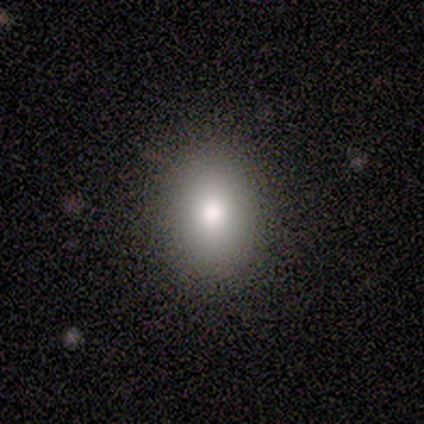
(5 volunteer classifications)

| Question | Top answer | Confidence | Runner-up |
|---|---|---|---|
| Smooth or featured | smooth | 40% | tied: star or artifact (40%) |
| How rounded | in between | 100% | — |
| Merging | none | 100% | — |